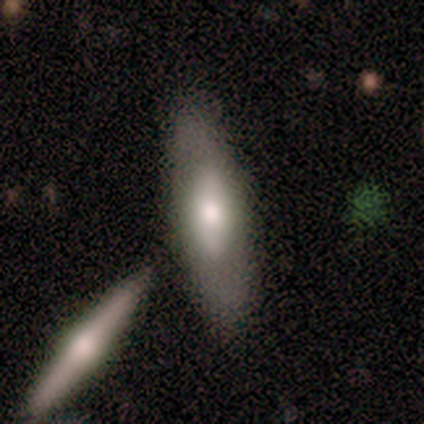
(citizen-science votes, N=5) This is clearly a featured or disk galaxy (80%). It is likely viewed edge-on (75%). Edge-on bulge: marginally boxy (33%, tied with none and rounded). Merging: likely none (60%).